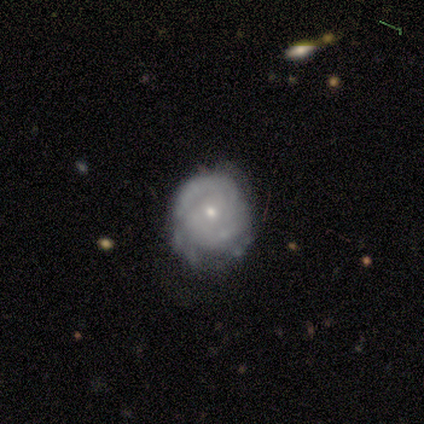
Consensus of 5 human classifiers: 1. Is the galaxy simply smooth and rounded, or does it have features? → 40% smooth (tied), 40% featured or disk (tied), 20% star or artifact.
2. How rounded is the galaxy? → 100% round, 0% in between, 0% cigar-shaped.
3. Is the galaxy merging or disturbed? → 75% none, 25% minor disturbance, 0% major disturbance, 0% merger.